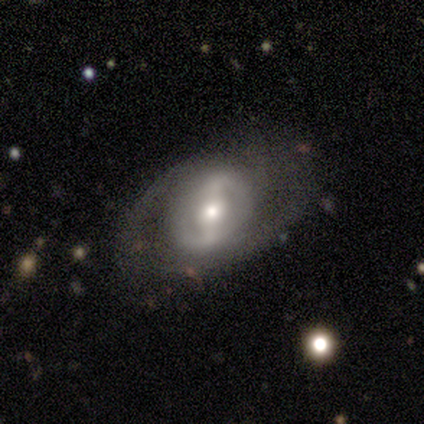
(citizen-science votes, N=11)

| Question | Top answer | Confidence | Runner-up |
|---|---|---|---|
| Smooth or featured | featured or disk | 91% | smooth (9%) |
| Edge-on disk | no | 90% | yes (10%) |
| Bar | strong | 67% | no (22%) |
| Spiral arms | yes | 89% | no (11%) |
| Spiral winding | loose | 50% | tight (38%) |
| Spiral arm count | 2 | 50% | tied: can't tell (50%) |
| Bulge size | moderate | 56% | large (22%) |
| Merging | none | 55% | minor disturbance (36%) |